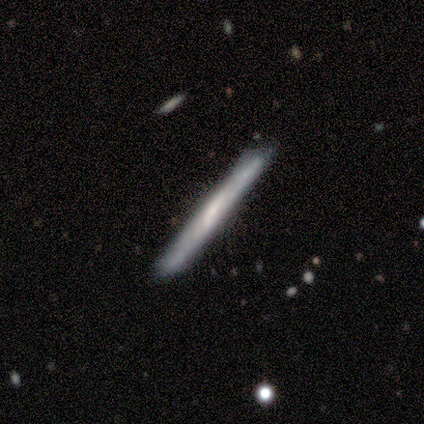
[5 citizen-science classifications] Overall: featured or disk (80%). Edge-on disk: yes (100%). Edge-on bulge: none (75%). Merging: none (100%).